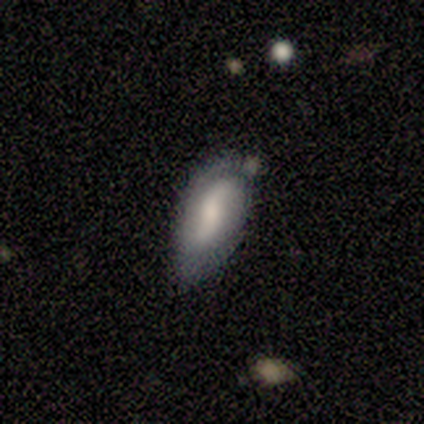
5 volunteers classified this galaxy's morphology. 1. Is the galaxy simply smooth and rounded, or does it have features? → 60% featured or disk, 40% smooth, 0% star or artifact.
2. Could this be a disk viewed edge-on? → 100% no, 0% yes.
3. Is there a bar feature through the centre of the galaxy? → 67% weak, 33% no, 0% strong.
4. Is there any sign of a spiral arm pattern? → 100% yes, 0% no.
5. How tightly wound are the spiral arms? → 67% loose, 33% tight, 0% medium.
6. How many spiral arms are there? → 67% 2, 33% 1, 0% 3, 0% 4, 0% more than 4, 0% can't tell.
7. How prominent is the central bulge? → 67% moderate, 33% small, 0% dominant, 0% large, 0% none.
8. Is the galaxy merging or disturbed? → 40% none (tied), 40% minor disturbance (tied), 20% major disturbance, 0% merger.